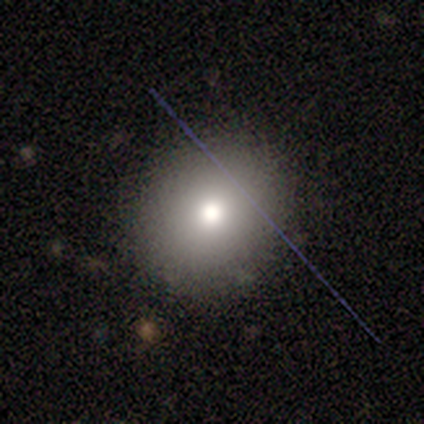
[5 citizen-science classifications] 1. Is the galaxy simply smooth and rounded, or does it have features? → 80% smooth, 20% featured or disk, 0% star or artifact.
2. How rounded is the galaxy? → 75% round, 25% in between, 0% cigar-shaped.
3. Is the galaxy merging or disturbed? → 100% none, 0% minor disturbance, 0% major disturbance, 0% merger.